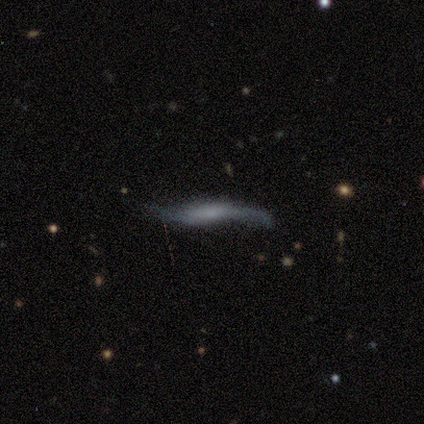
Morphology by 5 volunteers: Q: Smooth or featured?
A: featured or disk (80%); runner-up: smooth (20%)
Q: Edge-on disk?
A: yes (100%)
Q: Edge-on bulge?
A: boxy (75%); runner-up: none (25%)
Q: Merging?
A: minor disturbance (80%); runner-up: major disturbance (20%)